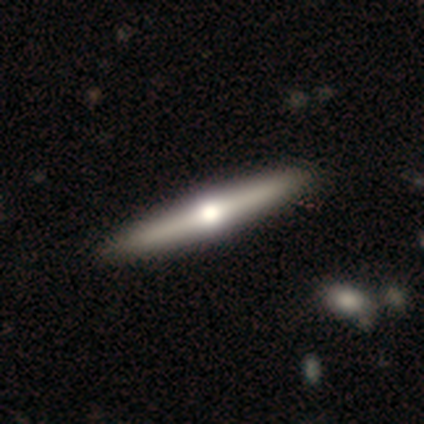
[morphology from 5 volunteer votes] smooth_or_featured: featured or disk (p=0.60) [alt: smooth p=0.40]
disk_edge_on: yes (p=1.00)
edge_on_bulge: rounded (p=1.00)
merging: none (p=0.80) [alt: minor disturbance p=0.20]